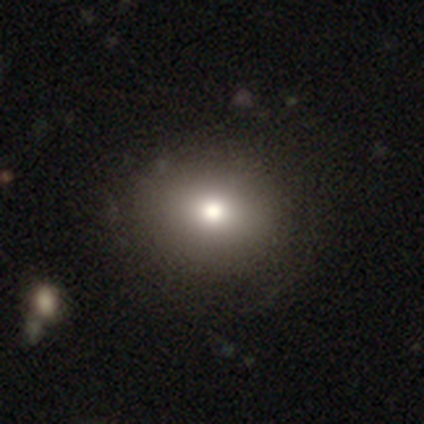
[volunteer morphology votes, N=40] smooth 82%, featured or disk 10%, star or artifact 8%. Down the decision tree: how rounded — round (61%); merging — none (54%).